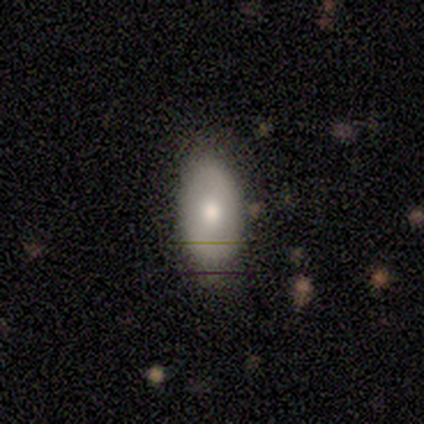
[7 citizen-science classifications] A smooth galaxy with no disk features (43%, tied with featured or disk) that is in between round and cigar-shaped (100%). Merging: none (67%).